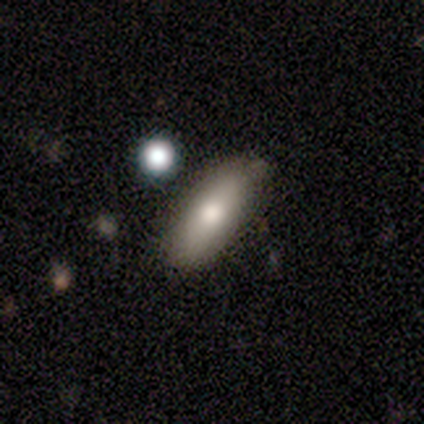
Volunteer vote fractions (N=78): This appears to be a smooth galaxy with no disk features (78%) that is in between round and cigar-shaped (74%). Merging: none (43%).